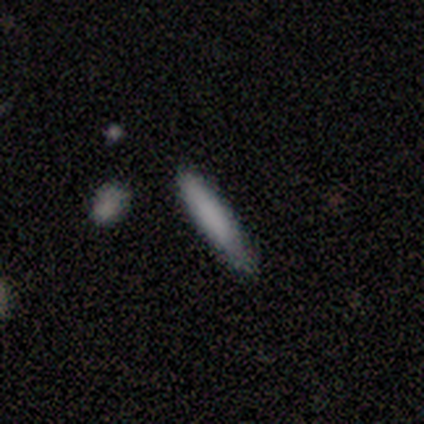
Smooth or featured?
  - smooth: 81% *
  - featured or disk: 14%
  - star or artifact: 5%
How rounded?
  - cigar-shaped: 87% *
  - in between: 13%
  - round: 0%
Merging?
  - none: 77% *
  - minor disturbance: 20%
  - merger: 3%
  - major disturbance: 0%